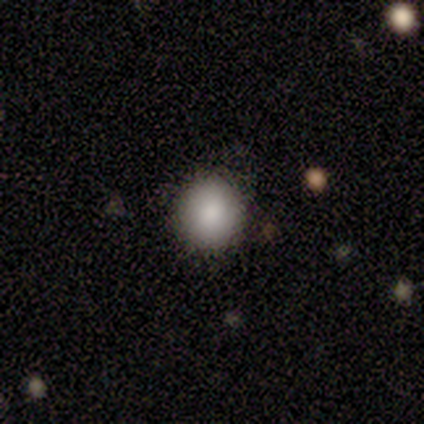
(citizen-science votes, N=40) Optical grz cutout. It shows a smooth galaxy with no disk features (90%) that is round (92%). Merging: none (78%).